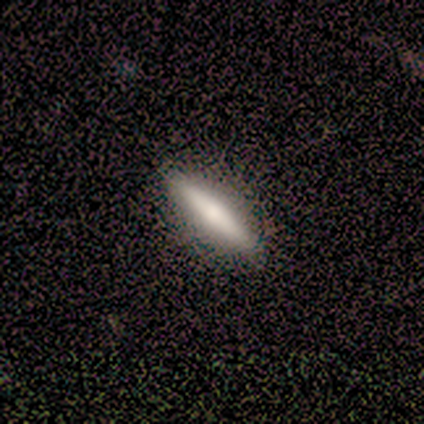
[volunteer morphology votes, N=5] Smooth or featured? 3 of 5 (60%) said smooth. How rounded? 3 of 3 (100%) said cigar-shaped. Merging? 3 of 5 (60%) said none.